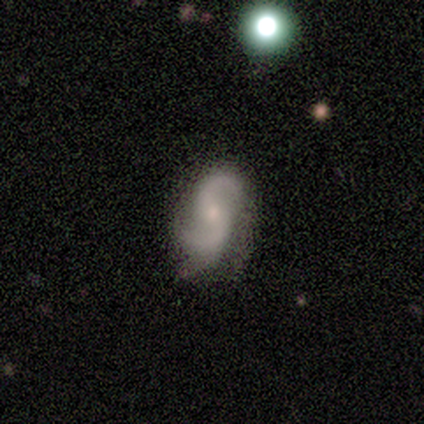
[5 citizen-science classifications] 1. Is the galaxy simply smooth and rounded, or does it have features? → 100% featured or disk, 0% smooth, 0% star or artifact.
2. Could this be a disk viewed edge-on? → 100% no, 0% yes.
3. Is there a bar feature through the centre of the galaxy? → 60% no, 40% weak, 0% strong.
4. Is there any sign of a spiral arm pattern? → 100% yes, 0% no.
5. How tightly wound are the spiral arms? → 80% medium, 20% loose, 0% tight.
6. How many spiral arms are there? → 100% 2, 0% 1, 0% 3, 0% 4, 0% more than 4, 0% can't tell.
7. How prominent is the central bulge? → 80% small, 20% moderate, 0% dominant, 0% large, 0% none.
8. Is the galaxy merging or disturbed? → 60% none, 20% minor disturbance, 20% merger, 0% major disturbance.